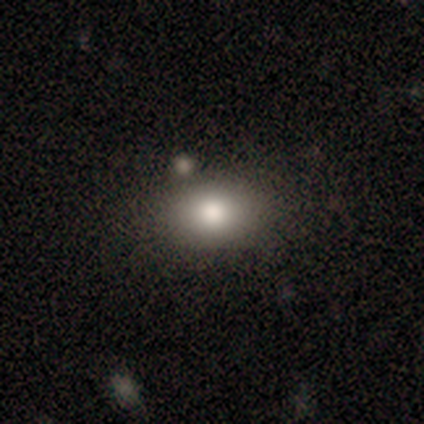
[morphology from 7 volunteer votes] smooth 71%, star or artifact 29%, featured or disk 0%. Down the decision tree: how rounded — in between (60%); merging — none (40%, tied with minor disturbance).